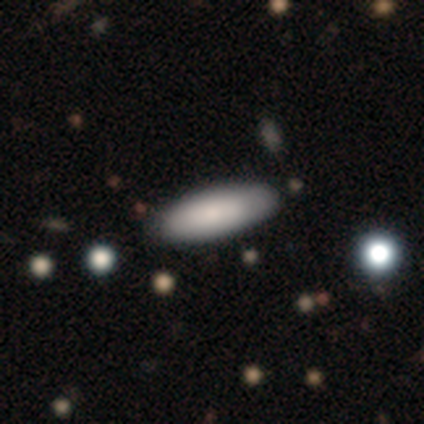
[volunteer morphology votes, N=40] smooth_or_featured: smooth (p=0.78) [alt: featured or disk p=0.23]
how_rounded: in between (p=0.61) [alt: cigar-shaped p=0.39]
merging: none (p=0.47) [alt: minor disturbance p=0.10]